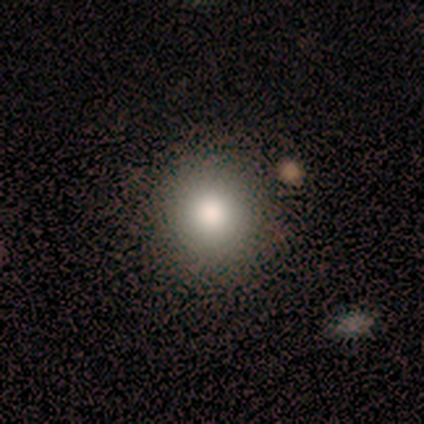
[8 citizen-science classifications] Smooth or featured?
  - smooth: 75% *
  - featured or disk: 12%
  - star or artifact: 12%
How rounded?
  - round: 83% *
  - in between: 17%
  - cigar-shaped: 0%
Merging?
  - none: 100% *
  - minor disturbance: 0%
  - major disturbance: 0%
  - merger: 0%